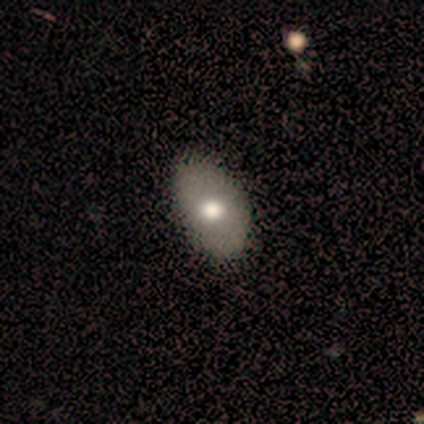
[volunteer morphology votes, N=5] Q: Smooth or featured?
A: smooth (80%); runner-up: featured or disk (20%)
Q: How rounded?
A: in between (100%)
Q: Merging?
A: none (60%); runner-up: minor disturbance (40%)